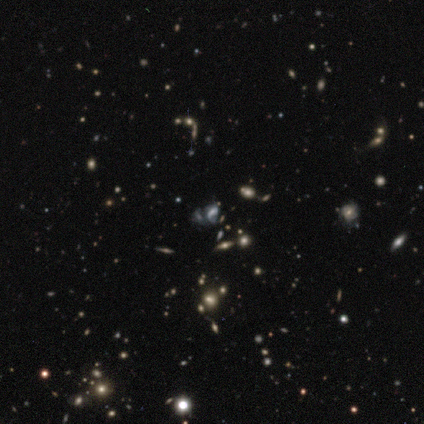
Volunteers were most divided on "smooth or featured": star or artifact: 46%, smooth: 32%, featured or disk: 22%.